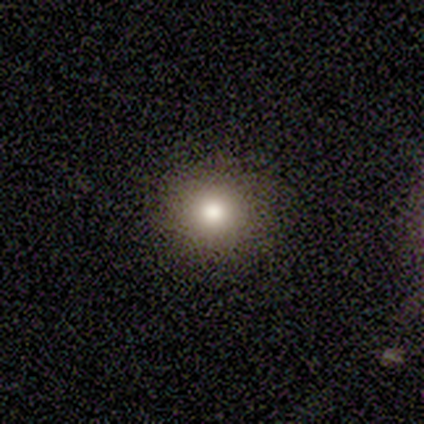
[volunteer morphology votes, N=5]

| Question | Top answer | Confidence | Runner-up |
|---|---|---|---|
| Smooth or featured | smooth | 80% | featured or disk (20%) |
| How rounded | round | 100% | — |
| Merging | none | 100% | — |